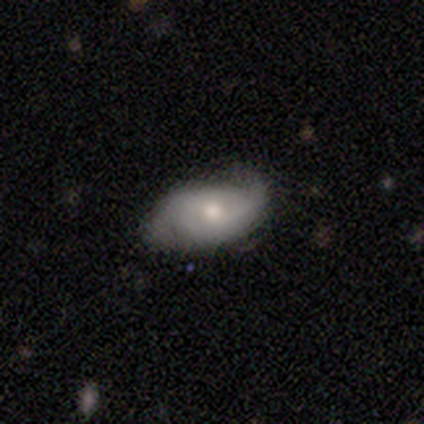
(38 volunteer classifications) A featured or disk galaxy (55%) with no bar (52%), 2 (89%) medium (50%) spiral arms (86%) and a moderate central bulge (76%). Merging: none (73%).